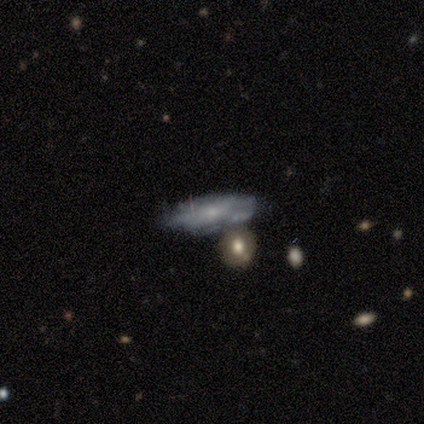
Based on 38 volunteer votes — Q: Smooth or featured?
A: smooth (63%); runner-up: featured or disk (34%)
Q: How rounded?
A: in between (67%); runner-up: cigar-shaped (33%)
Q: Merging?
A: none (41%); runner-up: minor disturbance (35%)